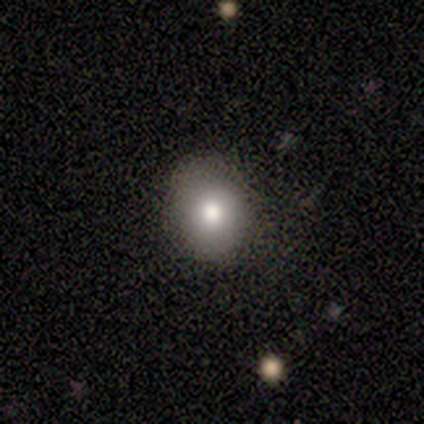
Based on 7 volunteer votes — smooth 57%, star or artifact 29%, featured or disk 14%. Down the decision tree: how rounded — round (75%); merging — none (100%).